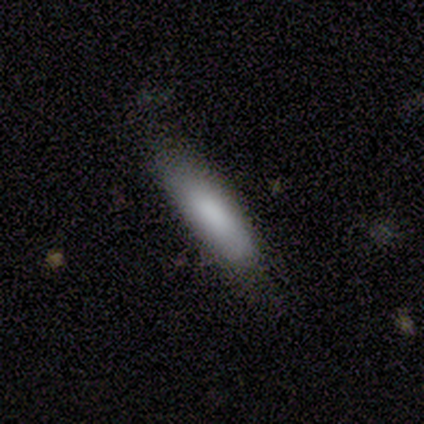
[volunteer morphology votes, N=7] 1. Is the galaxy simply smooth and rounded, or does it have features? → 100% smooth, 0% featured or disk, 0% star or artifact.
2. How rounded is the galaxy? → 71% in between, 29% cigar-shaped, 0% round.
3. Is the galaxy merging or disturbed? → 100% none, 0% minor disturbance, 0% major disturbance, 0% merger.